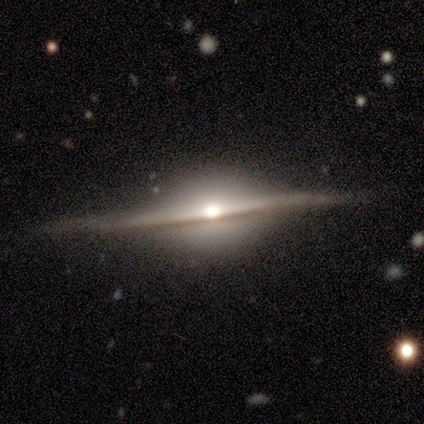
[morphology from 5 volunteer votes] Volunteers were most divided on "smooth or featured": featured or disk: 80%, smooth: 20%, star or artifact: 0%. More confident: edge-on disk — yes (100%); edge-on bulge — rounded (100%); merging — none (100%).